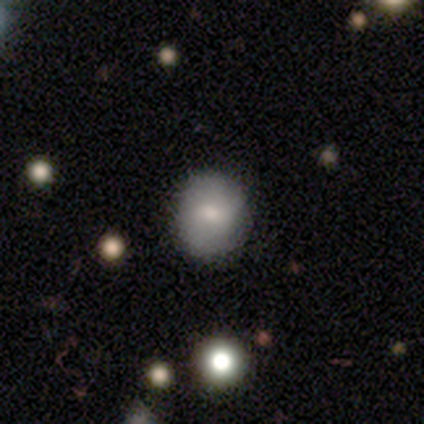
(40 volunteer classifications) This appears to be a smooth galaxy with no disk features (80%) that is round (81%). Merging: none (65%).